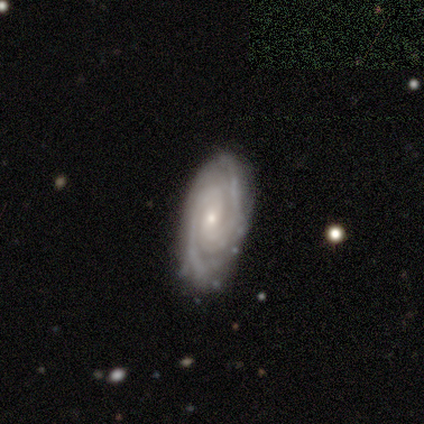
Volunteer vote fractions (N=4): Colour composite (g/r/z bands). It shows a featured or disk galaxy (100%) with no bar (67%), 2 (100%) medium (67%) spiral arms (100%) and a small central bulge (100%). Merging: none (100%).